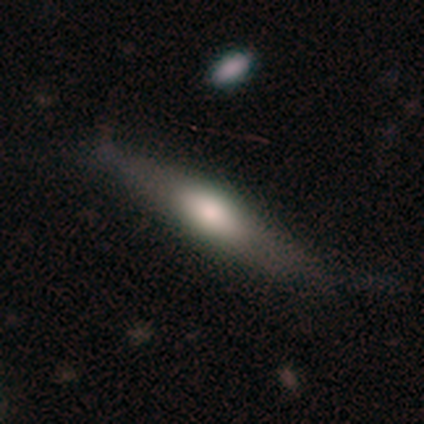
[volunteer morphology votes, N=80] A smooth galaxy with no disk features (60%) that is cigar-shaped (77%).

Vote fractions:
- Smooth or featured? smooth: 60% / featured or disk: 40% / star or artifact: 0%
- How rounded? cigar-shaped: 77% / in between: 23% / round: 0%
- Merging? none: 42% / minor disturbance: 6% / major disturbance: 1% / merger: 1%